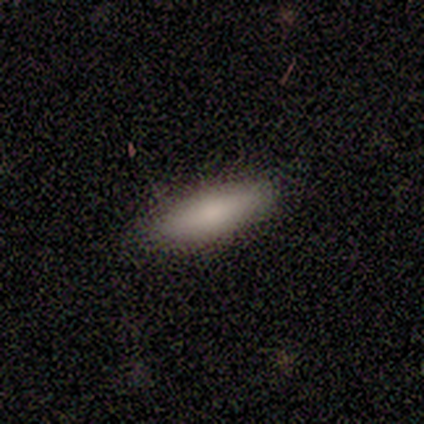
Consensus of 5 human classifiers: Overall: smooth (100%). How rounded: in between (100%). Merging: none (80%).